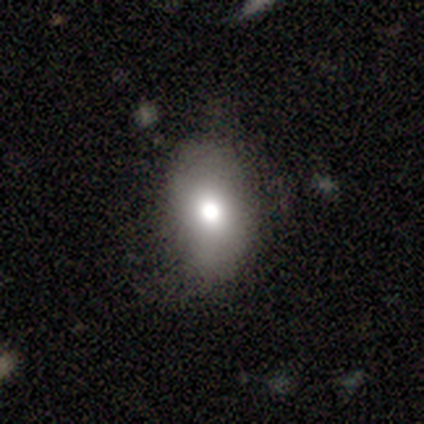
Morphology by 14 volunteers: smooth_or_featured: smooth (p=0.93) [alt: star or artifact p=0.07]
how_rounded: in between (p=0.85) [alt: round p=0.15]
merging: none (p=0.85) [alt: minor disturbance p=0.15]